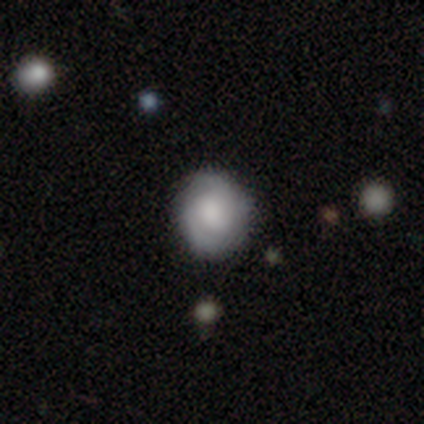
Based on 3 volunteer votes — This appears to be a smooth galaxy with no disk features (67%) that is round (100%). Merging: none (100%).